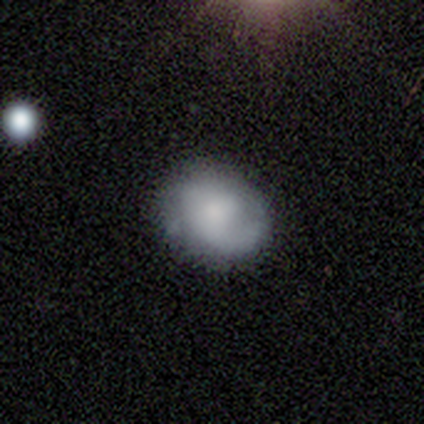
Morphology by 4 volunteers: Smooth or featured? 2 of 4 (50%, tied with featured or disk) said smooth. How rounded? 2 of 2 (100%) said in between. Merging? 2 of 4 (50%) said none.